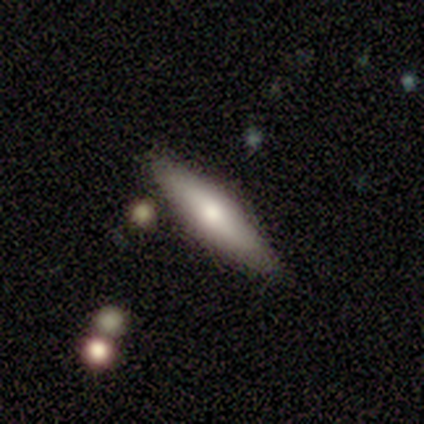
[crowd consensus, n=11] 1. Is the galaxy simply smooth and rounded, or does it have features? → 55% featured or disk, 45% smooth, 0% star or artifact.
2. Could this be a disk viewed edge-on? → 50% yes (tied), 50% no (tied).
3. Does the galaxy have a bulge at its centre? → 100% rounded, 0% boxy, 0% none.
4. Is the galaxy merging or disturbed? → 82% none, 9% minor disturbance, 9% major disturbance, 0% merger.